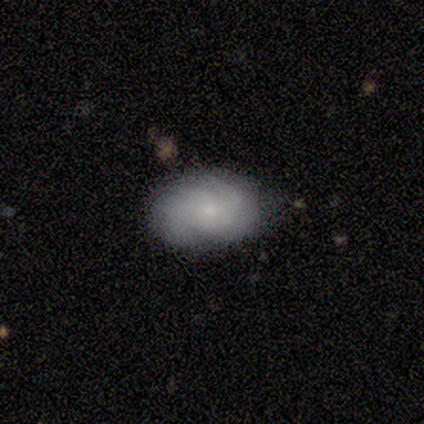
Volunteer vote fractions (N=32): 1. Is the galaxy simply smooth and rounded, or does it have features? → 56% smooth, 41% featured or disk, 3% star or artifact.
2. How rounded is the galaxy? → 89% in between, 11% round, 0% cigar-shaped.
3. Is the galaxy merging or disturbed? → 81% none, 19% minor disturbance, 0% major disturbance, 0% merger.